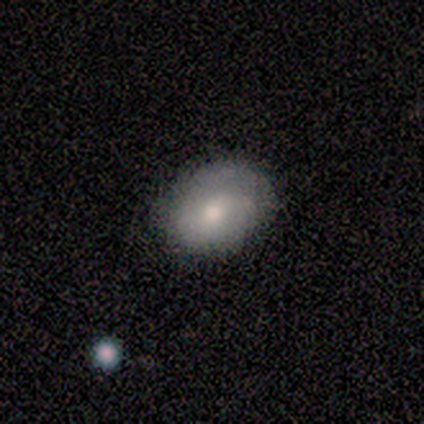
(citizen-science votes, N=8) Smooth or featured? smooth (50%, tied with featured or disk)
How rounded? in between (100%)
Merging? none (62%)